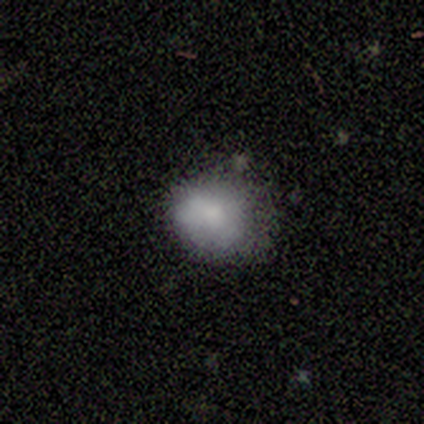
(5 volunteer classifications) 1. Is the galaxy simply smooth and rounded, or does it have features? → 60% smooth, 20% featured or disk, 20% star or artifact.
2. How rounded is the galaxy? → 100% in between, 0% round, 0% cigar-shaped.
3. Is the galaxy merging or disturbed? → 75% none, 25% minor disturbance, 0% major disturbance, 0% merger.